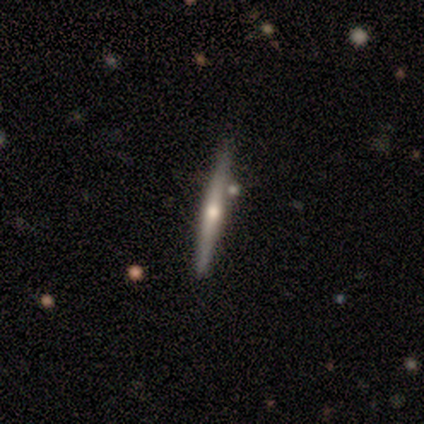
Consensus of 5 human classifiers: Volunteers were most divided on "smooth or featured": featured or disk: 80%, smooth: 20%, star or artifact: 0%. More confident: edge-on disk — yes (100%); edge-on bulge — rounded (100%); merging — none (100%).